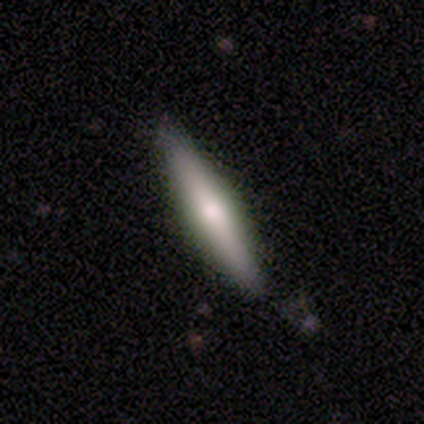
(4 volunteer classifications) Smooth or featured? smooth (50%, tied with featured or disk)
How rounded? cigar-shaped (100%)
Merging? none (75%)